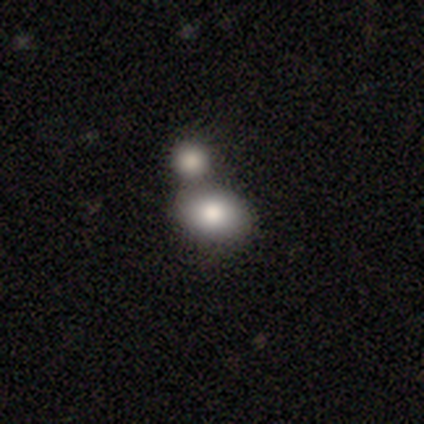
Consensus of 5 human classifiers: Smooth or featured? 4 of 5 (80%) said smooth. How rounded? 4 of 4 (100%) said in between. Merging? 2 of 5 (40%, tied with merger) said none.